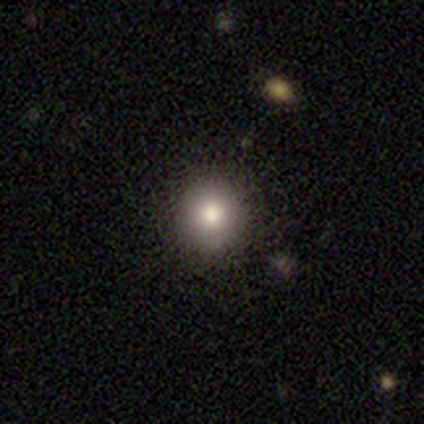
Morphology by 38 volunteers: A smooth galaxy with no disk features (74%) that is round (96%).

Vote fractions:
- Smooth or featured? smooth: 74% / star or artifact: 18% / featured or disk: 8%
- How rounded? round: 96% / in between: 4% / cigar-shaped: 0%
- Merging? none: 84% / minor disturbance: 13% / merger: 3% / major disturbance: 0%